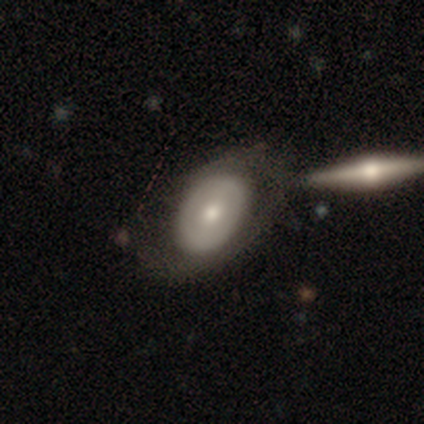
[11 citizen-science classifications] This appears to be a featured or disk galaxy (55%) with no bar (83%), no spiral arms (100%) and a moderate central bulge (67%). Merging: minor disturbance (50%).